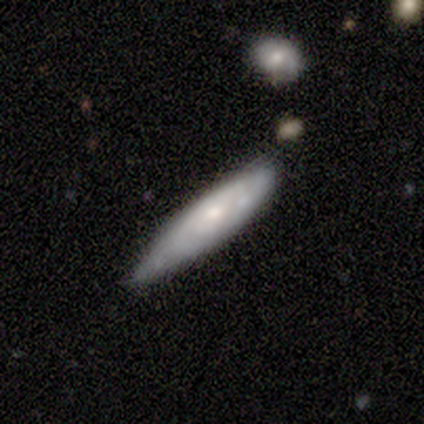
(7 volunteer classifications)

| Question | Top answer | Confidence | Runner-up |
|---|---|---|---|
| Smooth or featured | featured or disk | 57% | smooth (43%) |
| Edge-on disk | no | 75% | yes (25%) |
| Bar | no | 100% | — |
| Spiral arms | yes | 67% | no (33%) |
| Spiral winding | tight | 50% | tied: loose (50%) |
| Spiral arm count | can't tell | 100% | — |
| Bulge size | small | 67% | moderate (33%) |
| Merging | minor disturbance | 57% | none (43%) |